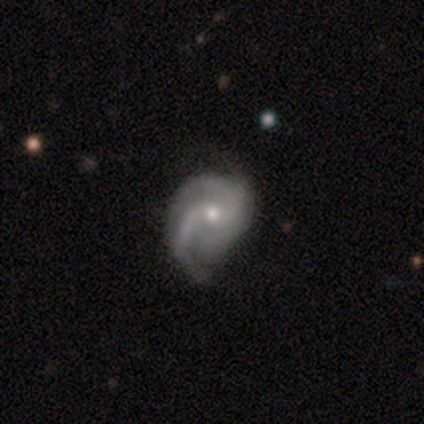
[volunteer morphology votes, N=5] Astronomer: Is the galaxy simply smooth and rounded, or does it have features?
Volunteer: featured or disk — 100%.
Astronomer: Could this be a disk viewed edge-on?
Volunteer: no — 100%.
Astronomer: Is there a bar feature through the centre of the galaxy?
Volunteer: no — 60% (runner-up: weak, 40%).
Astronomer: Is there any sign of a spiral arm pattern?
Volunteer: yes — 100%.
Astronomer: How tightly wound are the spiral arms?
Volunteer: medium — 80%.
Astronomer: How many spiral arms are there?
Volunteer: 2 — 60%.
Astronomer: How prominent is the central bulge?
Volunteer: moderate — 60% (runner-up: small, 40%).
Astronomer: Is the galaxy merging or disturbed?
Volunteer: none — 60% (runner-up: major disturbance, 40%).